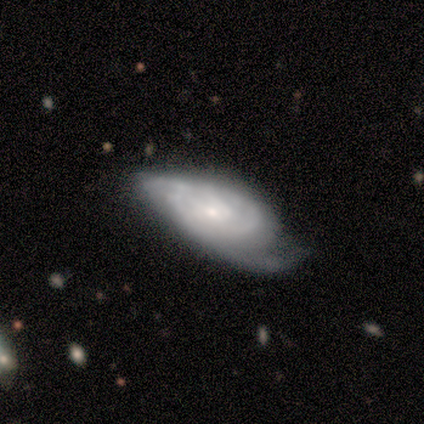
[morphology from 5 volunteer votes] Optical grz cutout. It shows a featured or disk galaxy (80%) with a weak bar (67%), 2 (67%) loose (67%) spiral arms (100%) and a small central bulge (67%). Merging: none (40%, tied with minor disturbance).